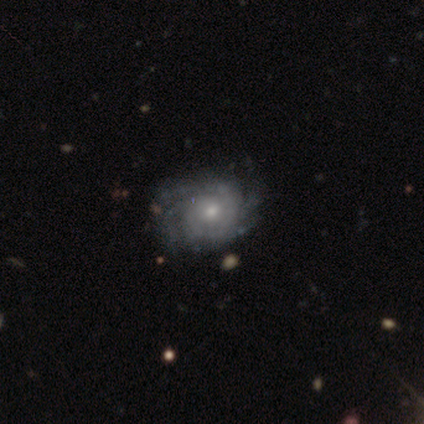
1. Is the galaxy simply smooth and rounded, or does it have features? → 92% featured or disk, 5% smooth, 3% star or artifact.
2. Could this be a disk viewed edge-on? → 96% no, 4% yes.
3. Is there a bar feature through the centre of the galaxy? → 69% no, 28% weak, 3% strong.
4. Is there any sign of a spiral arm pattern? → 96% yes, 4% no.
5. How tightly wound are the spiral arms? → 73% tight, 23% medium, 4% loose.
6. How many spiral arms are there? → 33% can't tell, 29% 4, 20% more than 4, 11% 3, 4% 2, 3% 1.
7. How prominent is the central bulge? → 56% small, 38% moderate, 3% large, 3% none, 0% dominant.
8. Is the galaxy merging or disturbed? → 62% none, 29% minor disturbance, 8% major disturbance, 0% merger.